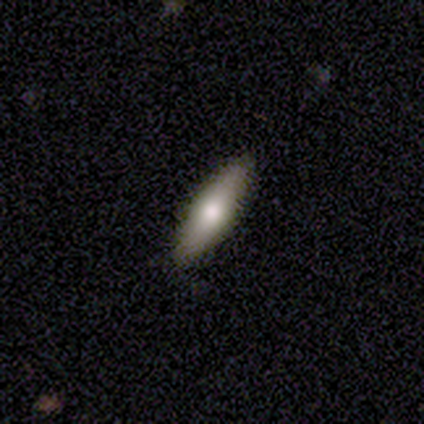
A smooth galaxy with no disk features (71%) that is cigar-shaped (68%).

Vote fractions:
- Smooth or featured? smooth: 71% / featured or disk: 29% / star or artifact: 0%
- How rounded? cigar-shaped: 68% / in between: 32% / round: 0%
- Merging? none: 89% / minor disturbance: 9% / major disturbance: 3% / merger: 0%